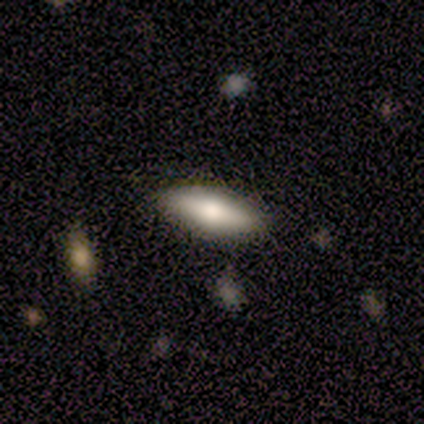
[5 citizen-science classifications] Overall: smooth (60%; featured or disk 40%). How rounded: in between (67%; cigar-shaped 33%). Merging: none (80%).